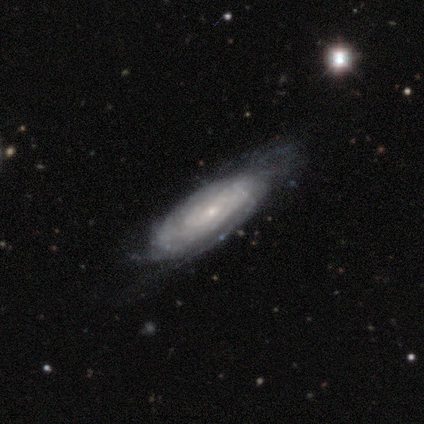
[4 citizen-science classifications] Smooth or featured? featured or disk (100%)
Edge-on disk? no (100%)
Bar? no (75%)
Spiral arms? yes (75%)
Spiral winding? tight (67%)
Spiral arm count? can't tell (100%)
Bulge size? small (100%)
Merging? none (100%)